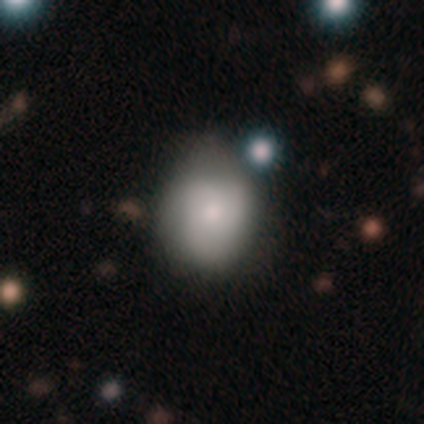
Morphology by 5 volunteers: Smooth or featured? featured or disk (60%)
Edge-on disk? no (100%)
Bar? no (67%)
Spiral arms? no (67%)
Bulge size? moderate (67%)
Merging? none (60%)